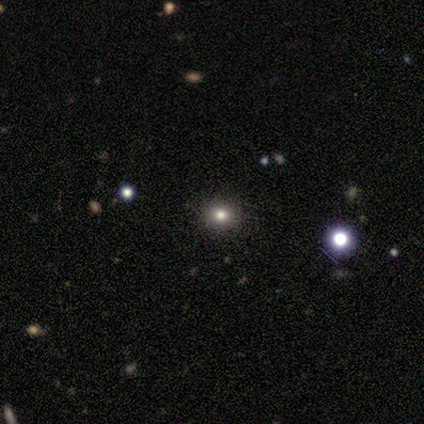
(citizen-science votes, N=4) smooth_or_featured: smooth (p=0.50) [tied with: star or artifact p=0.50]
how_rounded: round (p=1.00)
merging: none (p=1.00)